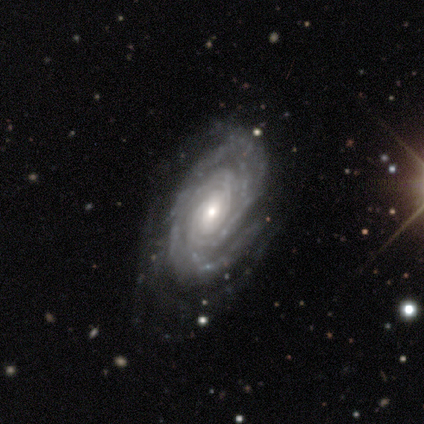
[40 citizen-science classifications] Smooth or featured: featured or disk — 95% (smooth — 5%)
Edge-on disk: no — 89% (yes — 11%)
Bar: no — 68% (weak — 29%)
Spiral arms: yes — 97% (no — 3%)
Spiral winding: tight — 88% (medium — 9%)
Spiral arm count: 2 — 27% (can't tell — 24%)
Bulge size: moderate — 56% (small — 44%)
Merging: none — 48% (minor disturbance — 5%)